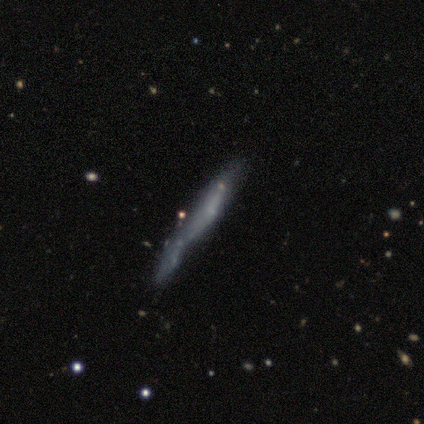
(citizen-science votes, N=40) A smooth galaxy with no disk features (48%) that is cigar-shaped (89%).

Vote fractions:
- Smooth or featured? smooth: 48% / featured or disk: 42% / star or artifact: 10%
- How rounded? cigar-shaped: 89% / round: 11% / in between: 0%
- Merging? none: 42% / merger: 25% / major disturbance: 19% / minor disturbance: 14%